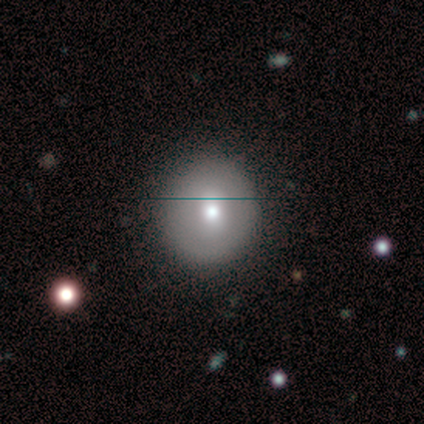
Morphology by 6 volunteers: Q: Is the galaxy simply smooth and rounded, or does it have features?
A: smooth — 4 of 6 (67%).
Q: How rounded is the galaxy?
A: round — 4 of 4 (100%).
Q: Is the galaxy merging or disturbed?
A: none — 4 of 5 (80%).